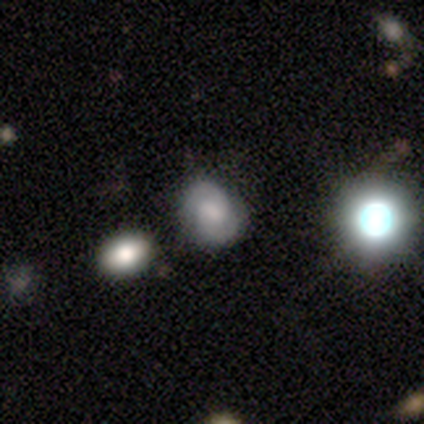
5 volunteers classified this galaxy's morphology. type=featured or disk (100%); edge-on=no (100%); bar=weak (80%); spiral arms=yes (100%); winding=tight (80%); arm count=2 (60%); bulge=moderate (40%, tied with small); merging=none (80%).